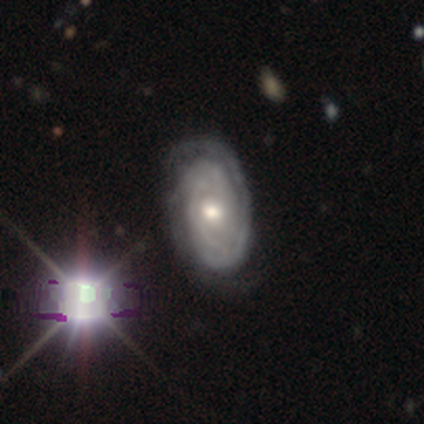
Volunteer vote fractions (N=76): Smooth or featured: featured or disk — 92% (smooth — 5%)
Edge-on disk: no — 96% (yes — 4%)
Bar: no — 84% (weak — 16%)
Spiral arms: yes — 96% (no — 4%)
Spiral winding: tight — 81% (medium — 9%)
Spiral arm count: can't tell — 41% (2 — 34%)
Bulge size: moderate — 70% (small — 21%)
Merging: none — 43% (minor disturbance — 9%)